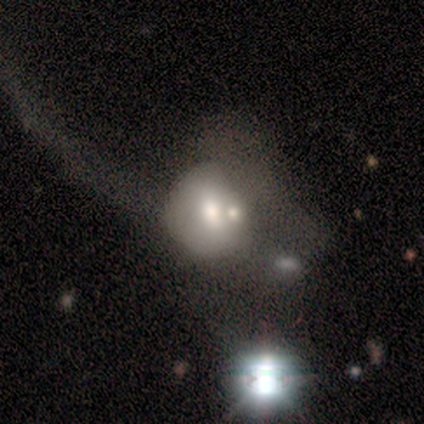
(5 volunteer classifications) Smooth or featured?
  - smooth: 80% *
  - featured or disk: 20%
  - star or artifact: 0%
How rounded?
  - round: 50% * (tied)
  - in between: 50% * (tied)
  - cigar-shaped: 0%
Merging?
  - none: 40% * (tied)
  - major disturbance: 40% * (tied)
  - minor disturbance: 20%
  - merger: 0%